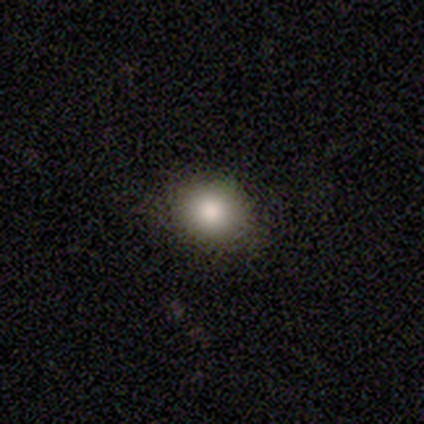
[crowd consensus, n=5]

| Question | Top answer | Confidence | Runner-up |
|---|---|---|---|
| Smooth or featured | smooth | 80% | featured or disk (20%) |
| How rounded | round | 50% | tied: in between (50%) |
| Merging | none | 80% | minor disturbance (20%) |